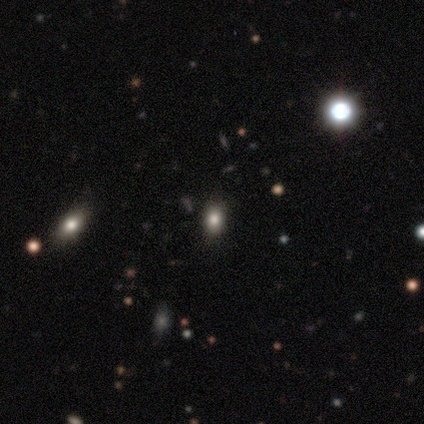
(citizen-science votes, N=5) This appears to be a smooth galaxy with no disk features (80%) that is round (50%, tied with in between). Merging: none (100%).